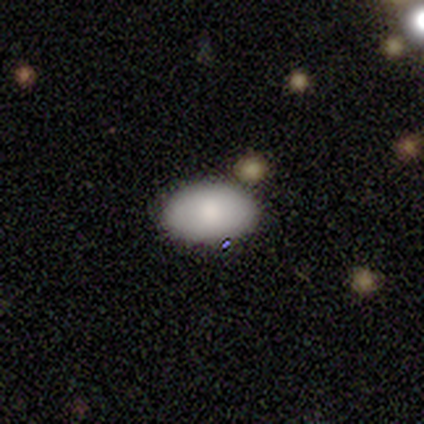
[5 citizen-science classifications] smooth_or_featured: smooth (p=0.80) [alt: featured or disk p=0.20]
how_rounded: in between (p=1.00)
merging: none (p=1.00)